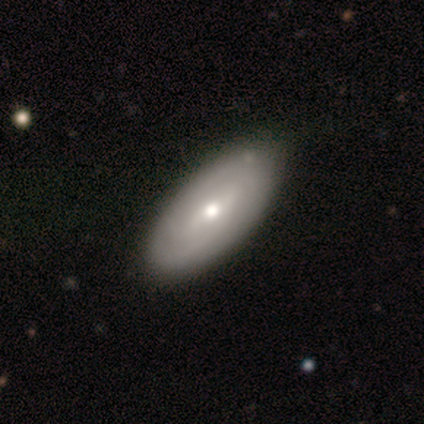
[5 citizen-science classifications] Smooth or featured: smooth — 60% (featured or disk — 40%)
How rounded: in between — 67% (cigar-shaped — 33%)
Merging: none — 40% (minor disturbance — 20%)